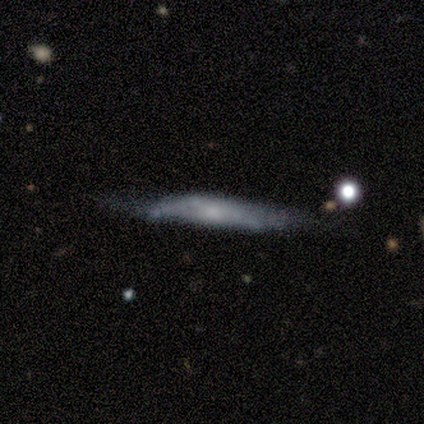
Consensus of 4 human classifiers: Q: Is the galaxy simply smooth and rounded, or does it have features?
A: smooth — 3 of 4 (75%).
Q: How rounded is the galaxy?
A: cigar-shaped — 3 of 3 (100%).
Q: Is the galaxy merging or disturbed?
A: minor disturbance — 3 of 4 (75%).